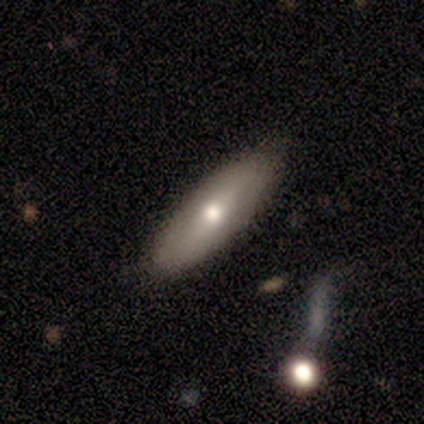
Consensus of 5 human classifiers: featured or disk 60%, smooth 40%, star or artifact 0%. Down the decision tree: edge-on disk — no (100%); bar — strong (33%, tied with weak and no); spiral arms — no (100%); bulge size — moderate (100%); merging — none (80%).